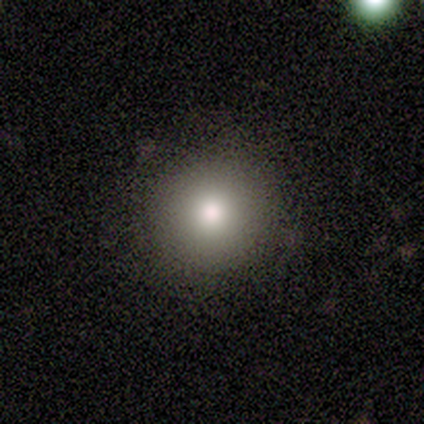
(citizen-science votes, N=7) Overall: smooth (100%). How rounded: round (100%). Merging: none (86%).